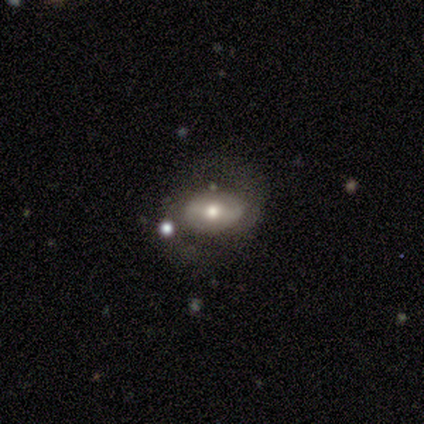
Morphology: type=featured or disk (64%); edge-on=no (92%); bar=weak (43%); spiral arms=yes (74%); winding=medium (59%); arm count=2 (94%); bulge=moderate (74%); merging=none (66%).